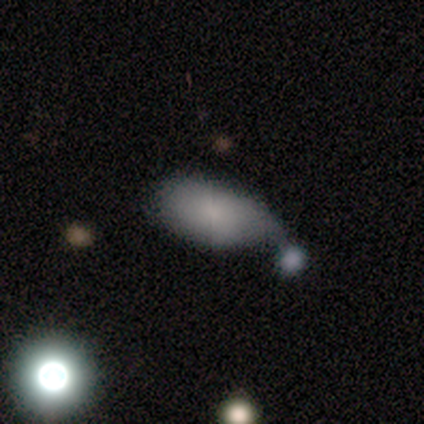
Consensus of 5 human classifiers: Q: Smooth or featured?
A: smooth (80%); runner-up: star or artifact (20%)
Q: How rounded?
A: in between (75%); runner-up: round (25%)
Q: Merging?
A: minor disturbance (50%); tied with: merger (50%)